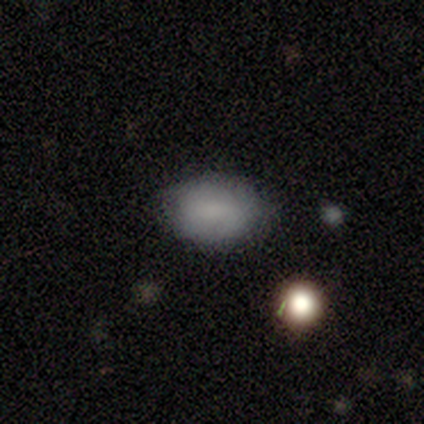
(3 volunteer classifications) Overall: smooth (100%). How rounded: in between (100%). Merging: none (100%).